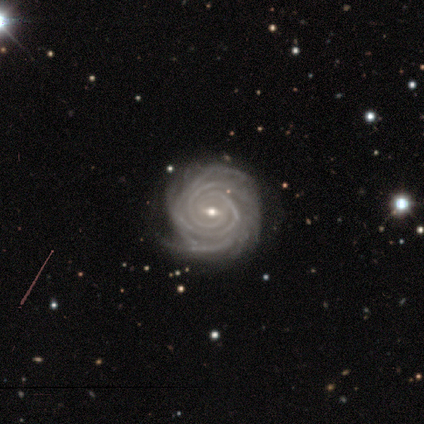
featured or disk 97%, star or artifact 3%, smooth 0%. Down the decision tree: edge-on disk — no (95%); bar — weak (57%); spiral arms — yes (97%); spiral arm count — 4 (41%); spiral winding — tight (82%); bulge size — small (54%); merging — none (76%).